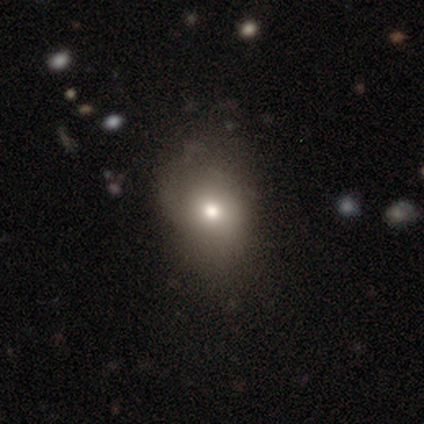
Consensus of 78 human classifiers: smooth 77%, star or artifact 14%, featured or disk 9%. Down the decision tree: how rounded — in between (65%); merging — none (30%).